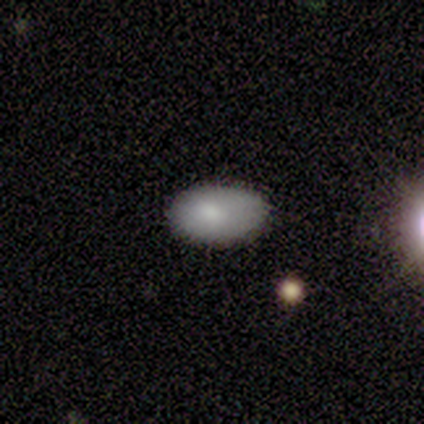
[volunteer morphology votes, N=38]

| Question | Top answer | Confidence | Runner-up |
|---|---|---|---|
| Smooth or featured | smooth | 89% | featured or disk (8%) |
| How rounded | in between | 97% | cigar-shaped (3%) |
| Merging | none | 86% | minor disturbance (11%) |